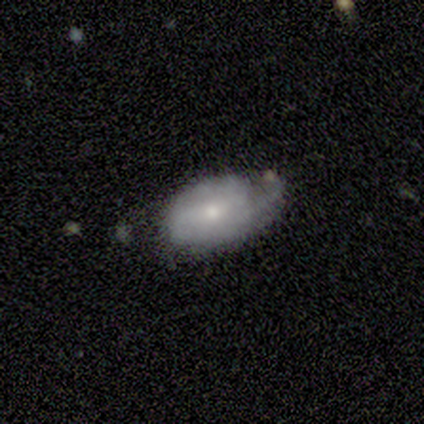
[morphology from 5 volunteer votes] Smooth or featured: smooth — 60% (featured or disk — 40%)
How rounded: in between — 67% (round — 33%)
Merging: none — 80% (merger — 20%)